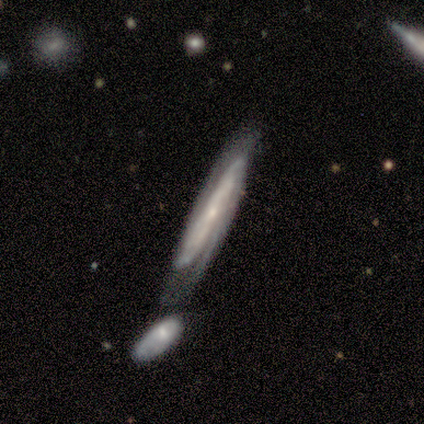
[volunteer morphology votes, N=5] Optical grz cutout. It shows a featured or disk galaxy (80%) with a weak bar (50%), tight (50%, tied with medium) spiral arms (100%) and a small central bulge (75%). Merging: none (50%, tied with merger).